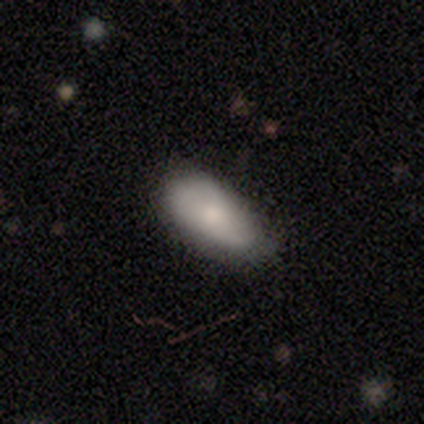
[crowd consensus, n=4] smooth_or_featured: smooth (p=0.75) [alt: featured or disk p=0.25]
how_rounded: in between (p=1.00)
merging: none (p=1.00)